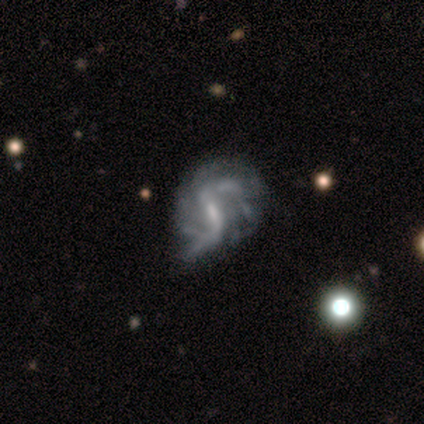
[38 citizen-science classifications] Smooth or featured?
  - featured or disk: 97% *
  - star or artifact: 3%
  - smooth: 0%
Edge-on disk?
  - no: 100% *
  - yes: 0%
Bar?
  - weak: 46% *
  - strong: 41%
  - no: 14%
Spiral arms?
  - yes: 89% *
  - no: 11%
Spiral winding?
  - medium: 48% *
  - loose: 45%
  - tight: 6%
Spiral arm count?
  - 2: 67% *
  - 3: 15%
  - can't tell: 9%
  - 4: 6%
  - 1: 3%
  - more than 4: 0%
Bulge size?
  - small: 46% *
  - moderate: 27%
  - none: 24%
  - dominant: 3%
  - large: 0%
Merging?
  - minor disturbance: 32% *
  - none: 19%
  - major disturbance: 14%
  - merger: 0%